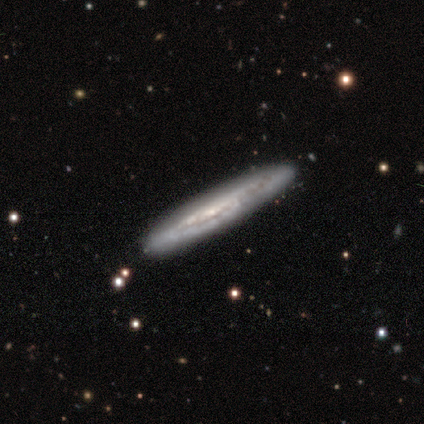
smooth-or-featured: featured or disk: 74% | smooth: 26% | star or artifact: 0%
  disk-edge-on: yes: 90% | no: 10%
    edge-on-bulge: none: 77% | rounded: 19% | boxy: 4%
  merging: none: 92% | minor disturbance: 8% | major disturbance: 0% | merger: 0%